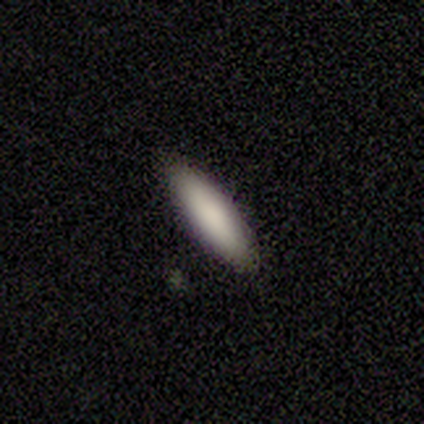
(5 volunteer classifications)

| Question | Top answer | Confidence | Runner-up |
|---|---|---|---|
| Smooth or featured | smooth | 100% | — |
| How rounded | cigar-shaped | 60% | in between (40%) |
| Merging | none | 80% | merger (20%) |